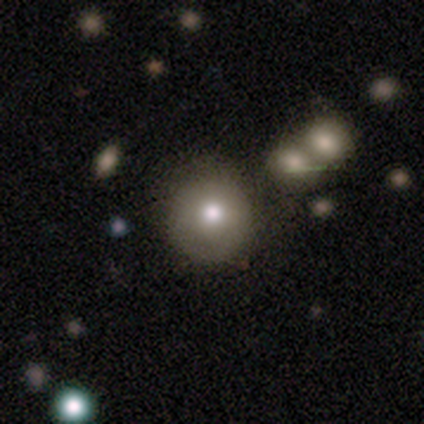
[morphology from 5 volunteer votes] A smooth galaxy with no disk features (100%) that is round (100%). Merging: none (40%, tied with minor disturbance).